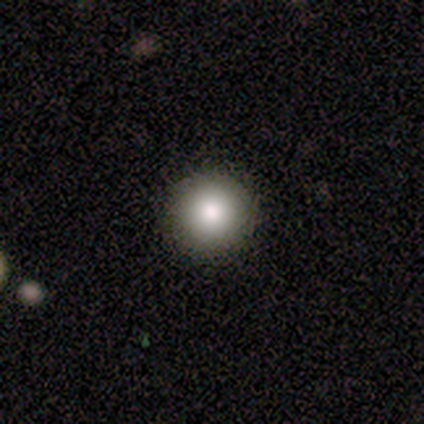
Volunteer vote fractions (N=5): smooth_or_featured: smooth (p=1.00)
how_rounded: round (p=1.00)
merging: none (p=1.00)